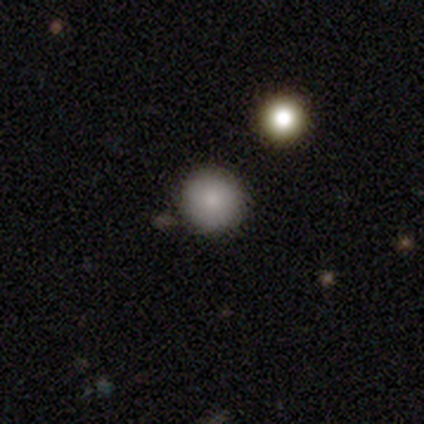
Overall: smooth (80%). How rounded: round (100%). Merging: none (100%).